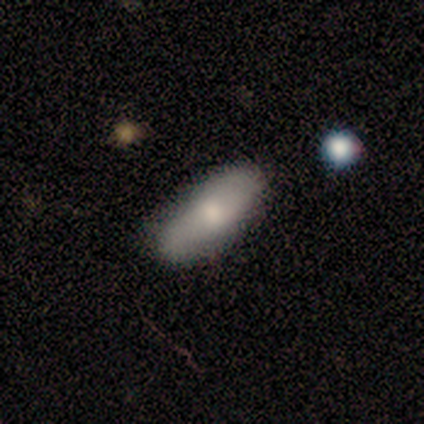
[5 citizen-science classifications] Smooth or featured? smooth (40%, tied with featured or disk)
How rounded? in between (50%, tied with cigar-shaped)
Merging? none (50%, tied with minor disturbance)